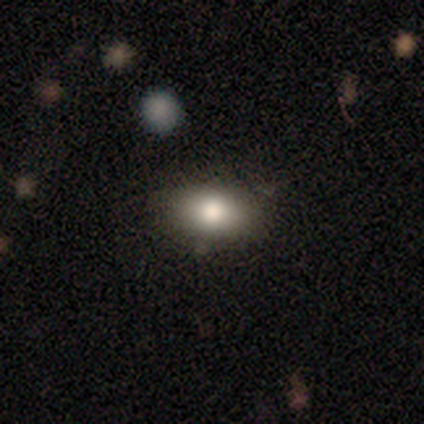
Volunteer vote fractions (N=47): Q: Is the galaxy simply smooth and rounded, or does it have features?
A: smooth — 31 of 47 (66%).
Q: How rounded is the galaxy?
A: in between — 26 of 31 (84%).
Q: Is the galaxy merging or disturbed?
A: none — 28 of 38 (74%).